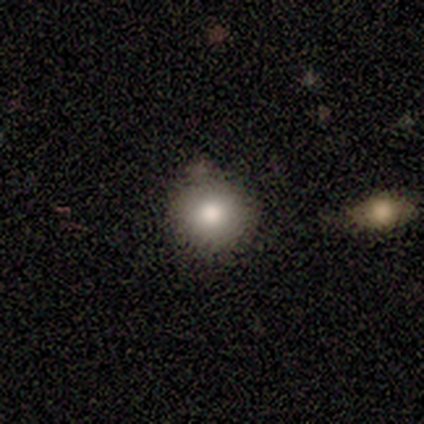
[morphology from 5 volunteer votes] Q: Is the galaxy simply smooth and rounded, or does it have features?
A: smooth — 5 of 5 (100%).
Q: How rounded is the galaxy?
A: round — 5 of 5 (100%).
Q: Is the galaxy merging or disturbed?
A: none — 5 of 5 (100%).